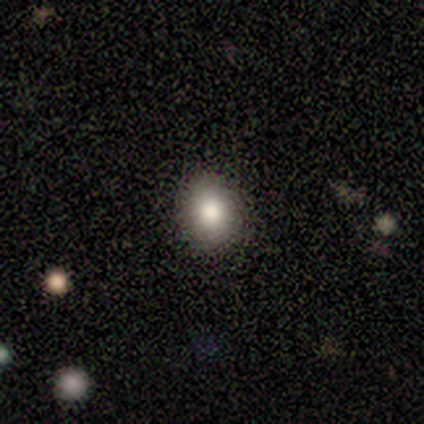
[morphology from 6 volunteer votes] A smooth galaxy with no disk features (100%) that is in between round and cigar-shaped (83%). Merging: none (67%).